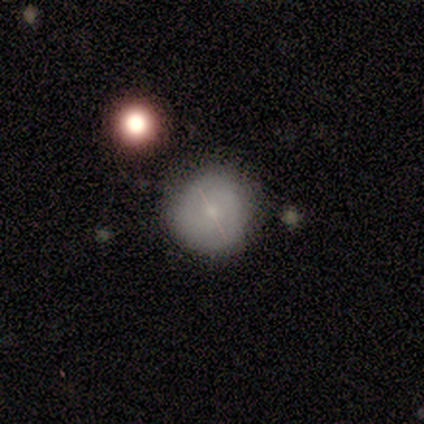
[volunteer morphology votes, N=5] Overall: smooth (60%; featured or disk 40%). How rounded: round (100%). Merging: none (80%).